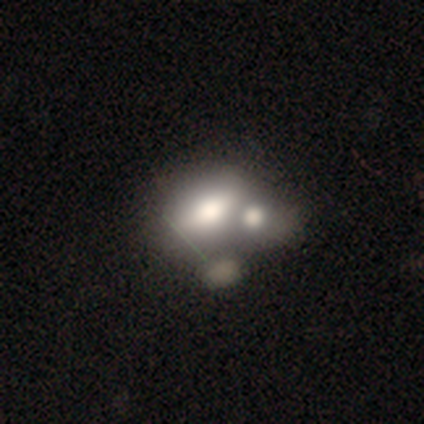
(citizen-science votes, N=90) Smooth or featured? smooth (54%)
How rounded? in between (84%)
Merging? merger (70%)